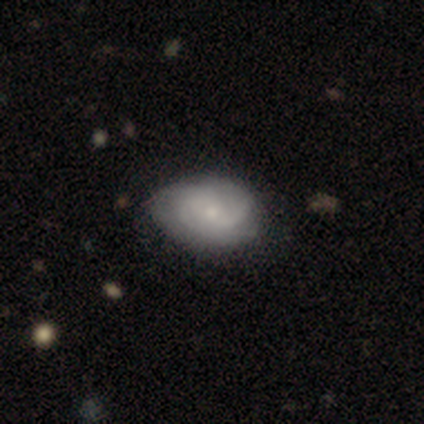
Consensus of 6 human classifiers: featured or disk 67%, smooth 33%, star or artifact 0%. Down the decision tree: edge-on disk — no (100%); bar — no (100%); spiral arms — yes (50%, tied with no); spiral arm count — 3 (50%, tied with can't tell); spiral winding — tight (100%); bulge size — small (100%); merging — none (83%).